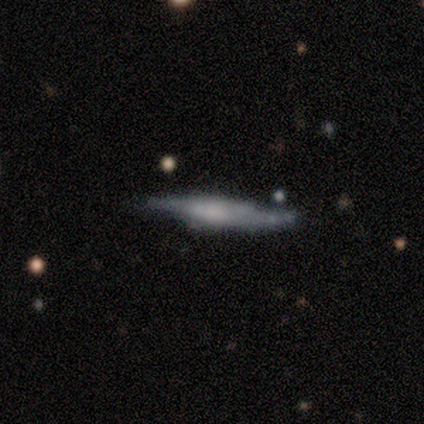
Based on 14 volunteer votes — A featured or disk galaxy (64%) viewed edge-on (89%) with a rounded central bulge (50%). Merging: none (45%, tied with minor disturbance).